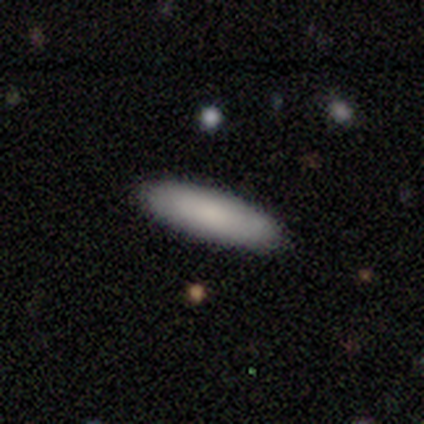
A smooth galaxy with no disk features (100%) that is in between round and cigar-shaped (67%). Merging: none (100%).